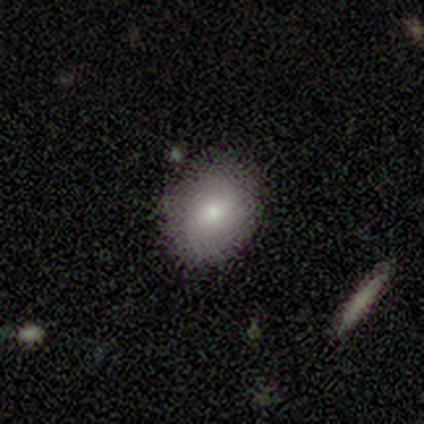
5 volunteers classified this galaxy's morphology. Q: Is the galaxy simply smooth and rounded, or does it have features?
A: smooth — 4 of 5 (80%).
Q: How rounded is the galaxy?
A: in between — 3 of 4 (75%).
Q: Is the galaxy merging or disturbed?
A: none — 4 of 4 (100%).